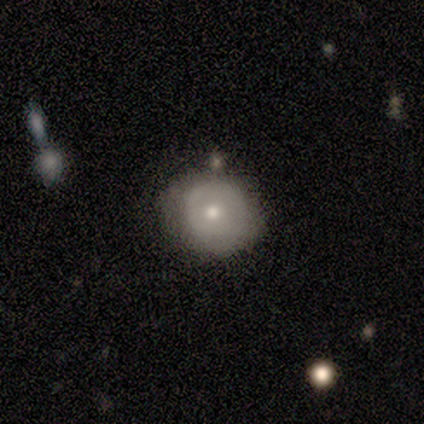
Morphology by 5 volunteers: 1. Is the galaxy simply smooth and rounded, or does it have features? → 60% featured or disk, 40% smooth, 0% star or artifact.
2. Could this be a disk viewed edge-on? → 100% no, 0% yes.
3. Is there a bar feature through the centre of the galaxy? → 100% no, 0% strong, 0% weak.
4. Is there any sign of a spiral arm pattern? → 67% no, 33% yes.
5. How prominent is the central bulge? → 100% moderate, 0% dominant, 0% large, 0% small, 0% none.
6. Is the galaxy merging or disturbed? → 60% none, 40% minor disturbance, 0% major disturbance, 0% merger.